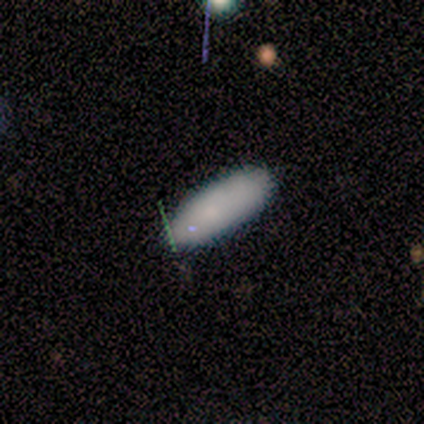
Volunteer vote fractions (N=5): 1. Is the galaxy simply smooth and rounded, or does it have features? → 100% smooth, 0% featured or disk, 0% star or artifact.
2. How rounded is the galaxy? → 60% in between, 40% cigar-shaped, 0% round.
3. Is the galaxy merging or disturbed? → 80% none, 20% minor disturbance, 0% major disturbance, 0% merger.